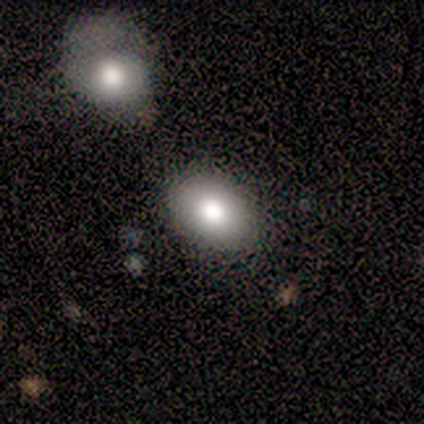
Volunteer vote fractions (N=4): Smooth or featured? 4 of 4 (100%) said smooth. How rounded? 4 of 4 (100%) said in between. Merging? 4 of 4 (100%) said none.